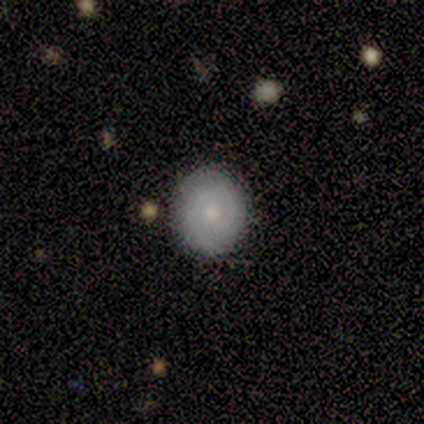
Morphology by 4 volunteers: Smooth or featured?
  - featured or disk: 75% *
  - smooth: 25%
  - star or artifact: 0%
Edge-on disk?
  - no: 100% *
  - yes: 0%
Bar?
  - weak: 67% *
  - no: 33%
  - strong: 0%
Spiral arms?
  - yes: 100% *
  - no: 0%
Spiral winding?
  - tight: 67% *
  - medium: 33%
  - loose: 0%
Spiral arm count?
  - 2: 100% *
  - 1: 0%
  - 3: 0%
  - 4: 0%
  - more than 4: 0%
  - can't tell: 0%
Bulge size?
  - moderate: 67% *
  - small: 33%
  - dominant: 0%
  - large: 0%
  - none: 0%
Merging?
  - none: 100% *
  - minor disturbance: 0%
  - major disturbance: 0%
  - merger: 0%